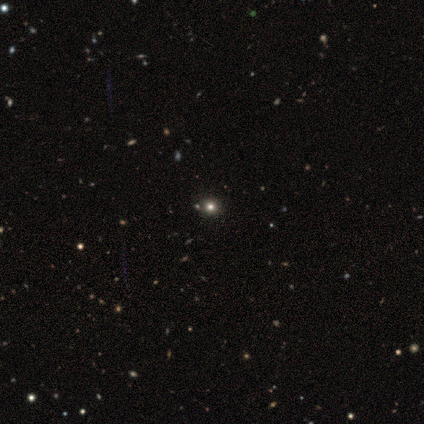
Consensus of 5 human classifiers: Smooth or featured? smooth (80%)
How rounded? round (100%)
Merging? none (100%)